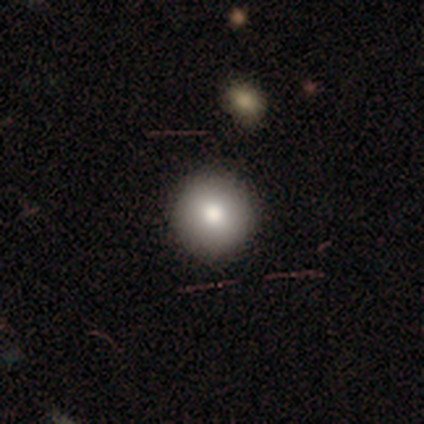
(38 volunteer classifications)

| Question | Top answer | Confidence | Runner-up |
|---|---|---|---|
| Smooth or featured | smooth | 84% | featured or disk (11%) |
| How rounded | round | 100% | — |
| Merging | none | 72% | major disturbance (3%) |